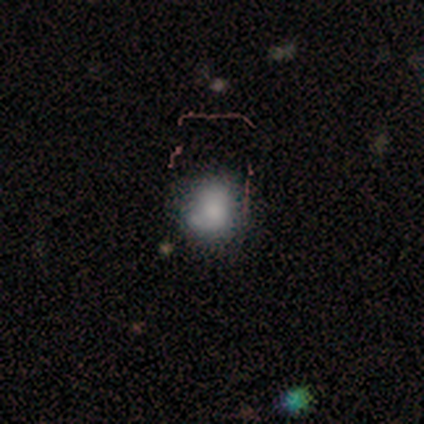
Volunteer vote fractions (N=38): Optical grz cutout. It shows a smooth galaxy with no disk features (68%) that is round (88%). Merging: none (59%).